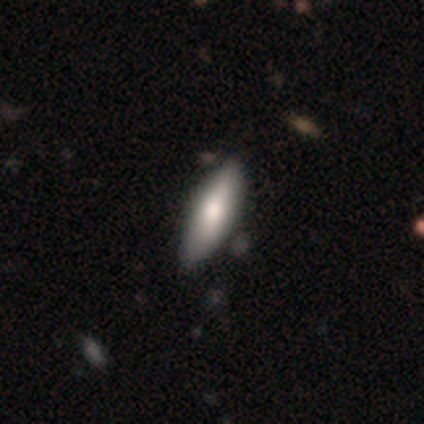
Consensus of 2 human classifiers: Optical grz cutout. It shows a smooth galaxy with no disk features (100%) that is in between round and cigar-shaped (50%, tied with cigar-shaped). Merging: none (100%).